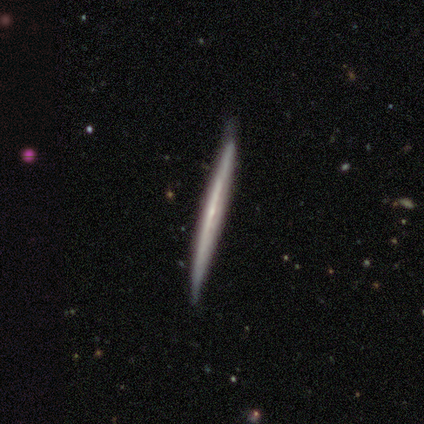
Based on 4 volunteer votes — Morphology: type=featured or disk (100%); edge-on=yes (100%); edge-on bulge=none (75%); merging=none (50%, tied with minor disturbance).